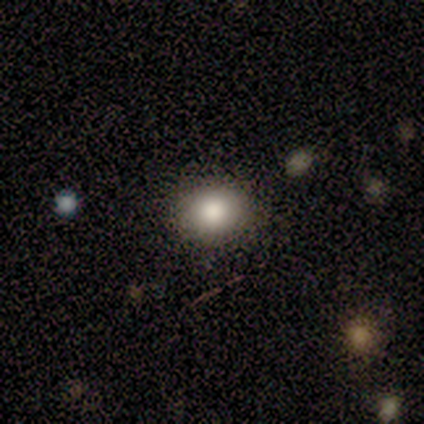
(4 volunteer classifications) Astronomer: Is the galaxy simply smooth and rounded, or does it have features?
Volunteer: smooth — 75%.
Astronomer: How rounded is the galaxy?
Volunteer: in between — 67%.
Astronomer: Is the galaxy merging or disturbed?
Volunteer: none — 100%.